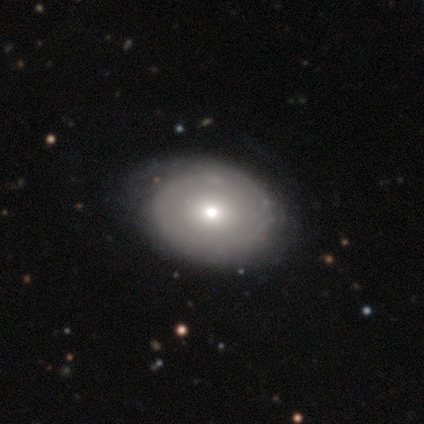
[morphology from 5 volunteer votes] Smooth or featured: smooth — 60% (featured or disk — 40%)
How rounded: round — 67% (in between — 33%)
Merging: none — 100%